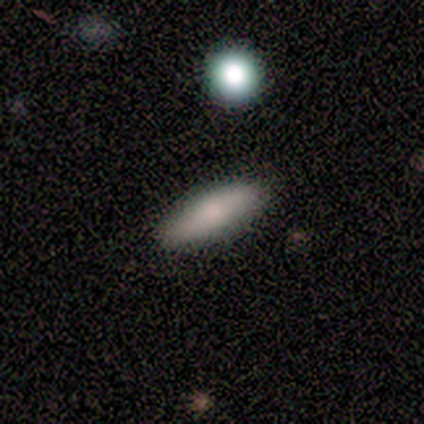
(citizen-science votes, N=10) Volunteers were most divided on "how rounded": in between: 67%, cigar-shaped: 33%, round: 0%. More confident: smooth or featured — smooth (90%); merging — none (90%).